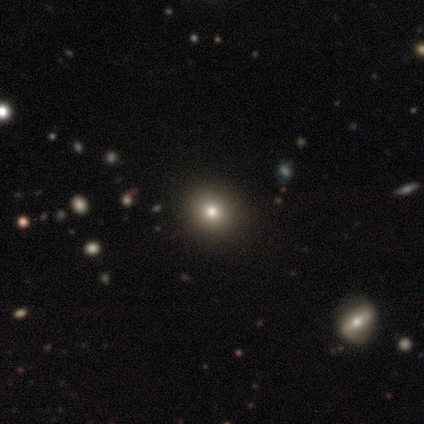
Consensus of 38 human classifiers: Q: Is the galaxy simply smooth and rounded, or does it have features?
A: smooth — 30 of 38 (79%).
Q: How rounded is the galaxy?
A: round — 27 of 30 (90%).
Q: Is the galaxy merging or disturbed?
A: none — 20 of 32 (62%).